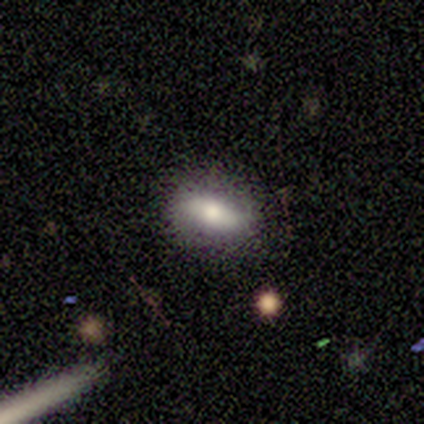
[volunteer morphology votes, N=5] Q: Smooth or featured?
A: smooth (60%); runner-up: star or artifact (40%)
Q: How rounded?
A: in between (67%); runner-up: cigar-shaped (33%)
Q: Merging?
A: none (100%)